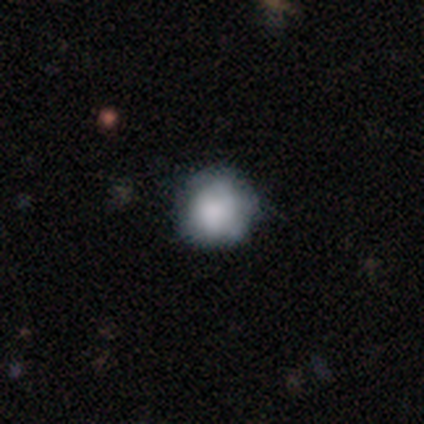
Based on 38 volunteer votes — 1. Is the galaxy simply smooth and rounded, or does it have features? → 74% smooth, 24% featured or disk, 3% star or artifact.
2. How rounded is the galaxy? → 93% round, 7% in between, 0% cigar-shaped.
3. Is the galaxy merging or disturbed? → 68% none, 30% minor disturbance, 3% merger, 0% major disturbance.